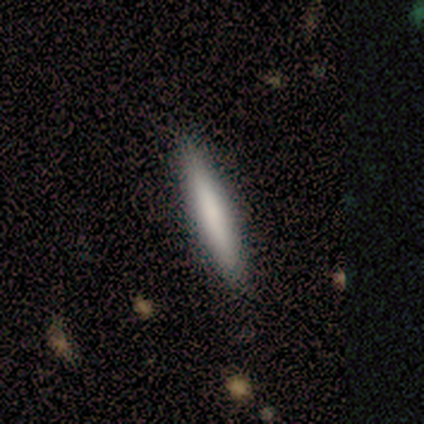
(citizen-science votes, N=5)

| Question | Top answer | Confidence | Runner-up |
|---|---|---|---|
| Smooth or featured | smooth | 100% | — |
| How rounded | cigar-shaped | 100% | — |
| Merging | none | 100% | — |